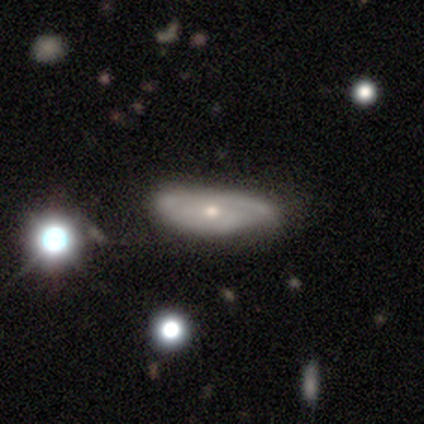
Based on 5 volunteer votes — Smooth or featured? featured or disk (60%)
Edge-on disk? no (100%)
Bar? no (67%)
Spiral arms? yes (67%)
Spiral winding? tight (100%)
Spiral arm count? 1 (50%, tied with 2)
Bulge size? moderate (67%)
Merging? none (40%, tied with major disturbance)